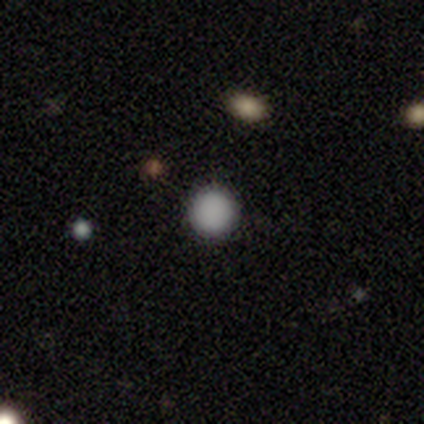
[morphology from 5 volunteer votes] A smooth galaxy with no disk features (100%) that is round (100%).

Vote fractions:
- Smooth or featured? smooth: 100% / featured or disk: 0% / star or artifact: 0%
- How rounded? round: 100% / in between: 0% / cigar-shaped: 0%
- Merging? none: 100% / minor disturbance: 0% / major disturbance: 0% / merger: 0%